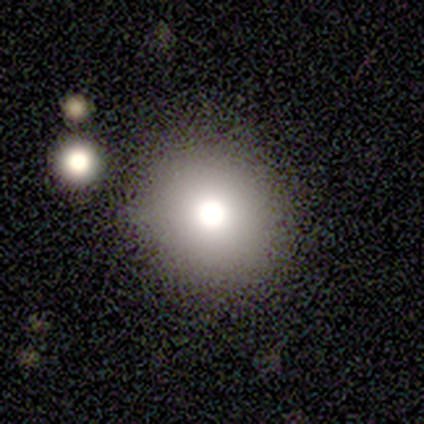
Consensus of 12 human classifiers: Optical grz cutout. It shows a smooth galaxy with no disk features (92%) that is round (82%). Merging: none (83%).